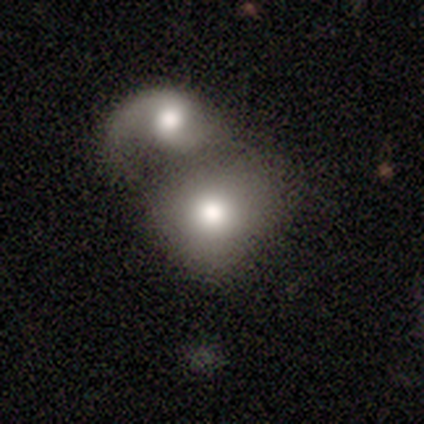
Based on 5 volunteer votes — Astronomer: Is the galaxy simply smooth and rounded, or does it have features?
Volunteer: featured or disk — 60% (runner-up: smooth, 40%).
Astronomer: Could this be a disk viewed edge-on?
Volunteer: no — 100%.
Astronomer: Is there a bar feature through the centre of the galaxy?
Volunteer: no — 67%.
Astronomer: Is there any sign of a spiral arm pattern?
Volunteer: no — 67%.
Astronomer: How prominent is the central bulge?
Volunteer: moderate — 67%.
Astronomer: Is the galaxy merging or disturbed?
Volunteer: merger — 100%.